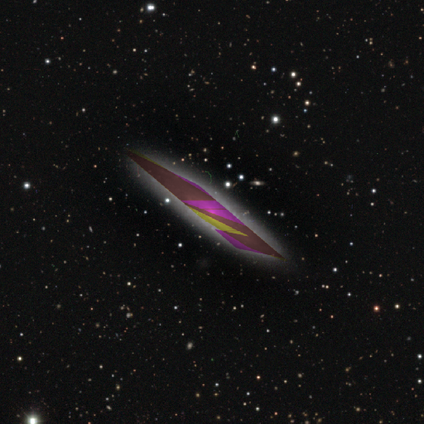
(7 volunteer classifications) Smooth or featured? star or artifact (86%)